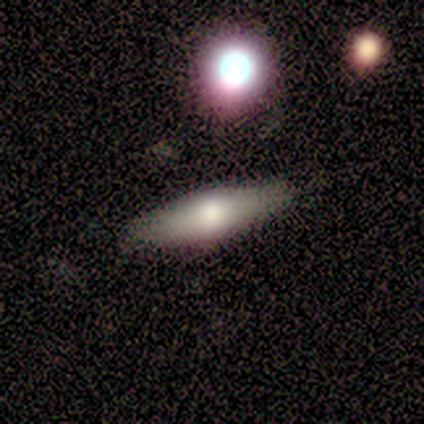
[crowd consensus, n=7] Q: Smooth or featured?
A: smooth (71%); runner-up: featured or disk (14%)
Q: How rounded?
A: in between (60%); runner-up: cigar-shaped (40%)
Q: Merging?
A: none (100%)